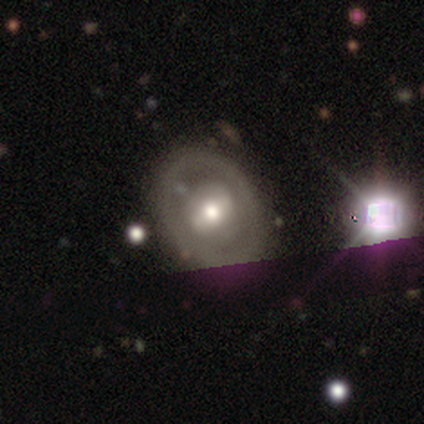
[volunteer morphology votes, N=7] Volunteers were most divided on "smooth or featured": featured or disk: 71%, smooth: 14%, star or artifact: 14%. More confident: edge-on disk — no (100%); bulge size — moderate (100%); merging — none (83%); bar — weak (80%); spiral arms — no (80%).